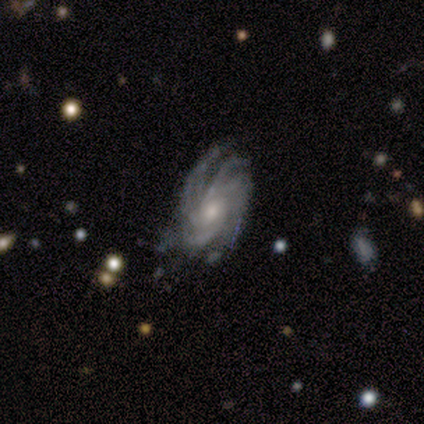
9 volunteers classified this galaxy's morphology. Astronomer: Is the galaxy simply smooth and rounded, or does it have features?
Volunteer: featured or disk — 89%.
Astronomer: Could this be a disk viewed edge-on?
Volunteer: no — 100%.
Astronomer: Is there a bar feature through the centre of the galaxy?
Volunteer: no — 100%.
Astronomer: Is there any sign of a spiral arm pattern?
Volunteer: yes — 100%.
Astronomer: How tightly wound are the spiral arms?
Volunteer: tight — 88%.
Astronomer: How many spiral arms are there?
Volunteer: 4 — 50%.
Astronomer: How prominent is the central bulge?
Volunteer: moderate — 75%.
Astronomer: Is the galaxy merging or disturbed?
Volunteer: minor disturbance — 62%.